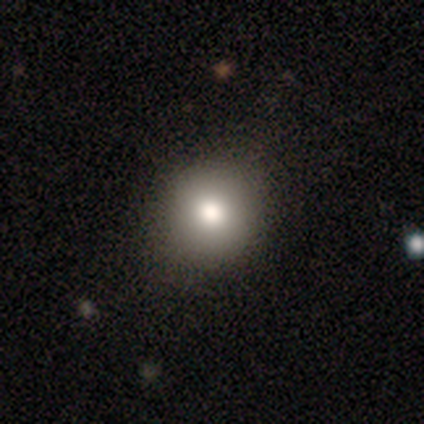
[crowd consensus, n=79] smooth 92%, featured or disk 4%, star or artifact 4%. Down the decision tree: how rounded — round (86%); merging — none (41%).